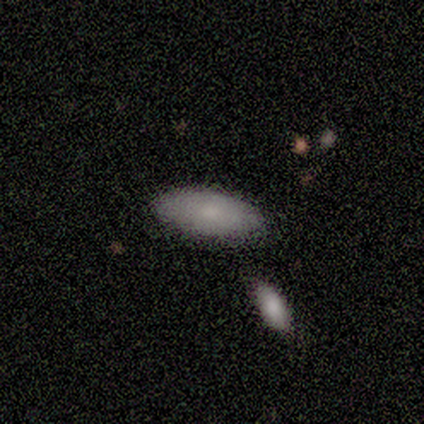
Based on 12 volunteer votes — Smooth or featured?
  - smooth: 83% *
  - featured or disk: 17%
  - star or artifact: 0%
How rounded?
  - in between: 100% *
  - round: 0%
  - cigar-shaped: 0%
Merging?
  - none: 83% *
  - minor disturbance: 17%
  - major disturbance: 0%
  - merger: 0%